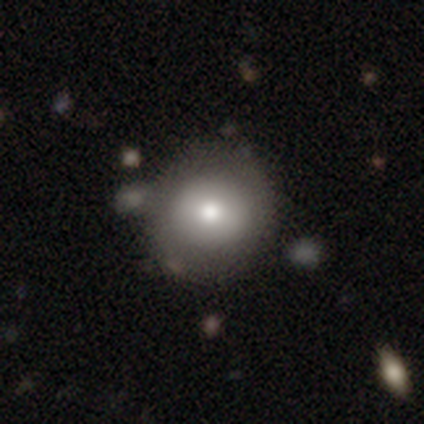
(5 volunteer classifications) Smooth or featured?
  - smooth: 100% *
  - featured or disk: 0%
  - star or artifact: 0%
How rounded?
  - round: 100% *
  - in between: 0%
  - cigar-shaped: 0%
Merging?
  - none: 80% *
  - minor disturbance: 20%
  - major disturbance: 0%
  - merger: 0%